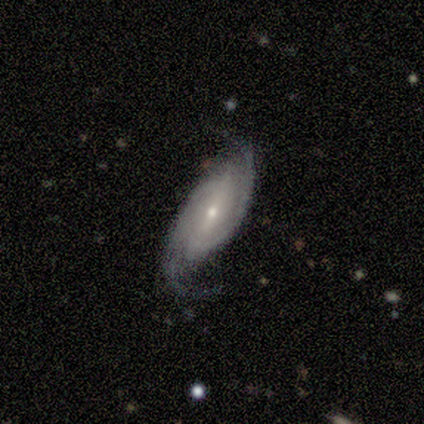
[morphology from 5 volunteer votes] Smooth or featured?
  - featured or disk: 80% *
  - star or artifact: 20%
  - smooth: 0%
Edge-on disk?
  - no: 100% *
  - yes: 0%
Bar?
  - strong: 75% *
  - no: 25%
  - weak: 0%
Spiral arms?
  - yes: 100% *
  - no: 0%
Spiral winding?
  - tight: 50% *
  - medium: 25%
  - loose: 25%
Spiral arm count?
  - 2: 75% *
  - more than 4: 25%
  - 1: 0%
  - 3: 0%
  - 4: 0%
  - can't tell: 0%
Bulge size?
  - moderate: 50% * (tied)
  - small: 50% * (tied)
  - dominant: 0%
  - large: 0%
  - none: 0%
Merging?
  - none: 75% *
  - minor disturbance: 25%
  - major disturbance: 0%
  - merger: 0%